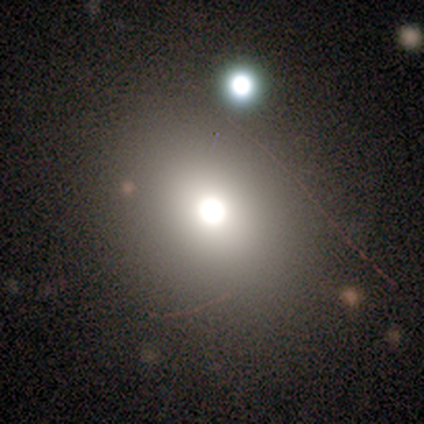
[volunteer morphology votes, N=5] A smooth galaxy with no disk features (60%) that is round (67%).

Vote fractions:
- Smooth or featured? smooth: 60% / featured or disk: 40% / star or artifact: 0%
- How rounded? round: 67% / in between: 33% / cigar-shaped: 0%
- Merging? none: 100% / minor disturbance: 0% / major disturbance: 0% / merger: 0%